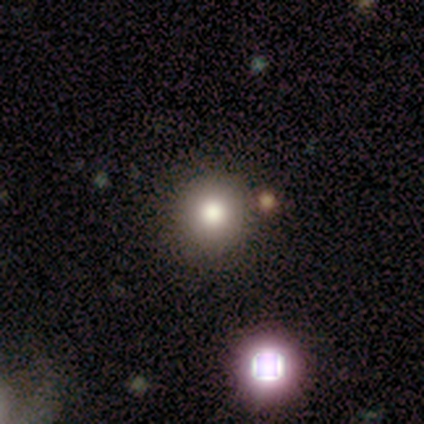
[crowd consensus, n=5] Overall: smooth (100%). How rounded: round (100%). Merging: none (100%).